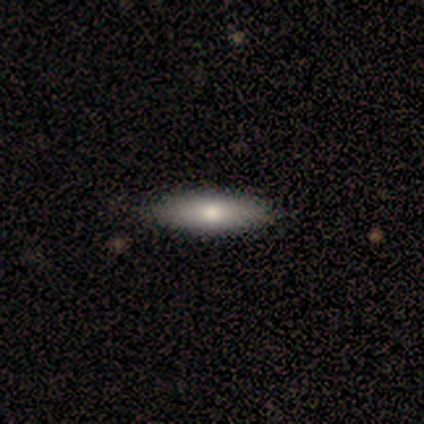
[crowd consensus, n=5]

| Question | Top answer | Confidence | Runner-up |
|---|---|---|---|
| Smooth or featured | smooth | 80% | featured or disk (20%) |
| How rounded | cigar-shaped | 75% | in between (25%) |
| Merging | none | 100% | — |